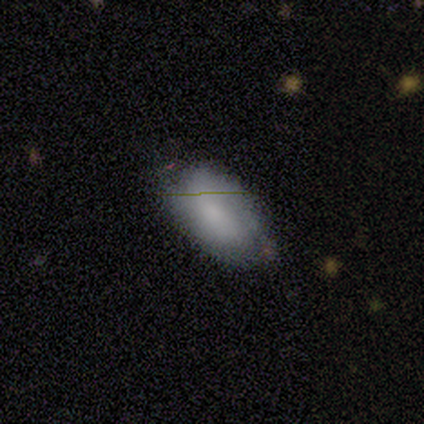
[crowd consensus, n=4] A smooth galaxy with no disk features (75%) that is in between round and cigar-shaped (100%). Merging: none (75%).